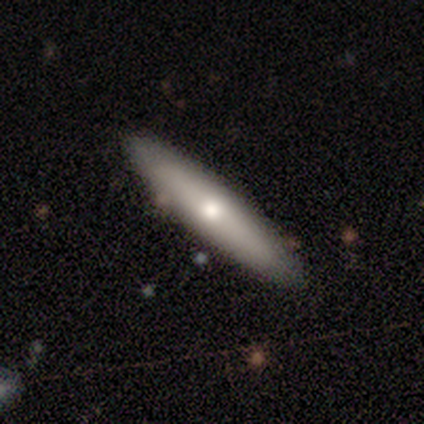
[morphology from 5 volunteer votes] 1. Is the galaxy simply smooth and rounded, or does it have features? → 60% featured or disk, 40% smooth, 0% star or artifact.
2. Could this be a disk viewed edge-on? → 67% yes, 33% no.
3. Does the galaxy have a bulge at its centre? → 100% rounded, 0% boxy, 0% none.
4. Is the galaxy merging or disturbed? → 100% none, 0% minor disturbance, 0% major disturbance, 0% merger.